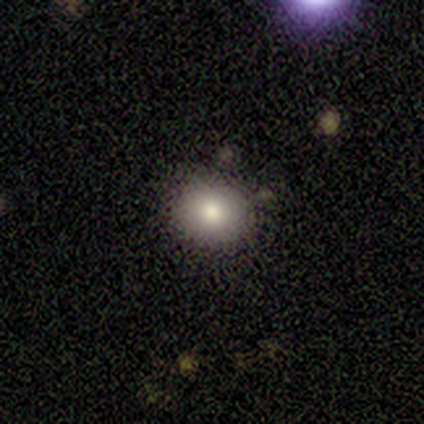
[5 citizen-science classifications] Smooth or featured: smooth — 100%
How rounded: round — 80% (in between — 20%)
Merging: none — 100%